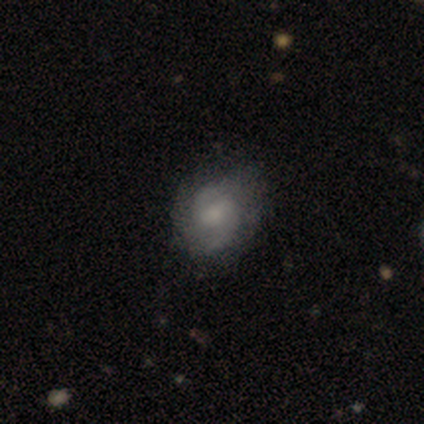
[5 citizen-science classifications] featured or disk 80%, smooth 20%, star or artifact 0%. Down the decision tree: edge-on disk — no (100%); bar — weak (50%); spiral arms — yes (100%); spiral arm count — 2 (100%); spiral winding — tight (75%); bulge size — large (25%, tied with moderate, small and none); merging — none (80%).